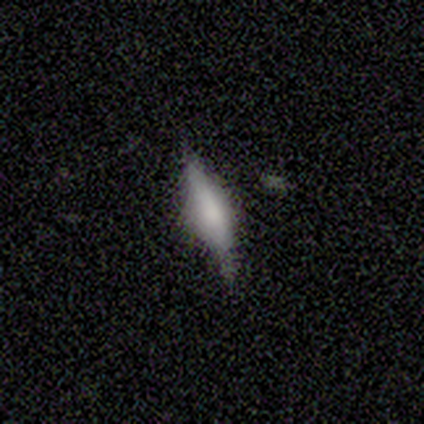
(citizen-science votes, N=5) Smooth or featured? 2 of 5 (40%, tied with featured or disk) said smooth. How rounded? 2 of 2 (100%) said cigar-shaped. Merging? 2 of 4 (50%, tied with minor disturbance) said none.